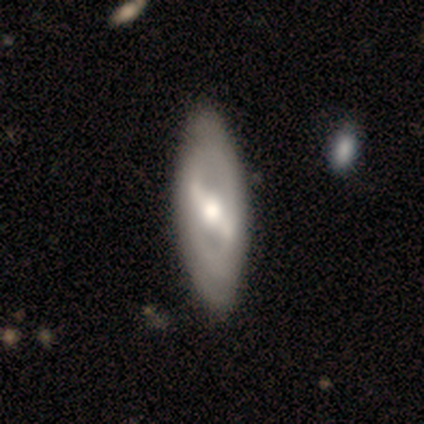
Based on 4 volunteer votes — smooth-or-featured: smooth: 50% (tied) | featured or disk: 50% (tied) | star or artifact: 0%
  how-rounded: in between: 100% | round: 0% | cigar-shaped: 0%
  merging: none: 50% (tied) | minor disturbance: 50% (tied) | major disturbance: 0% | merger: 0%